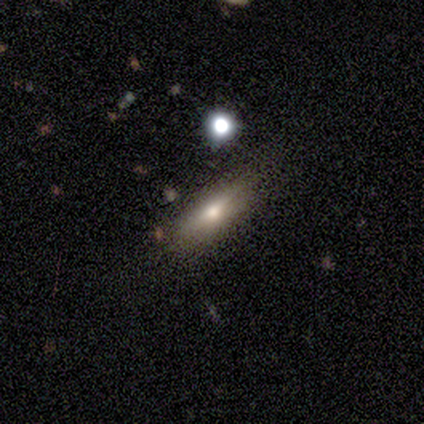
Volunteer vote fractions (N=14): This appears to be a smooth galaxy with no disk features (64%) that is in between round and cigar-shaped (67%). Merging: none (69%).